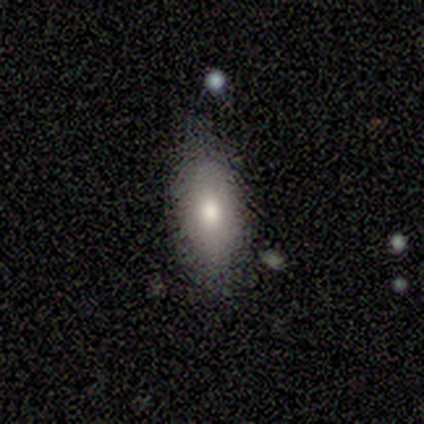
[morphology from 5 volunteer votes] A smooth galaxy with no disk features (80%) that is in between round and cigar-shaped (100%). Merging: none (80%).